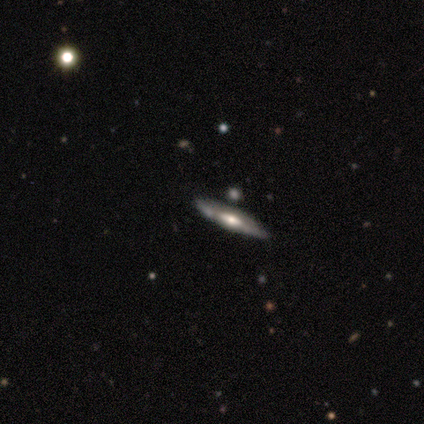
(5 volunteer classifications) A featured or disk galaxy (80%) viewed edge-on (100%) with a rounded central bulge (75%). Merging: none (100%).